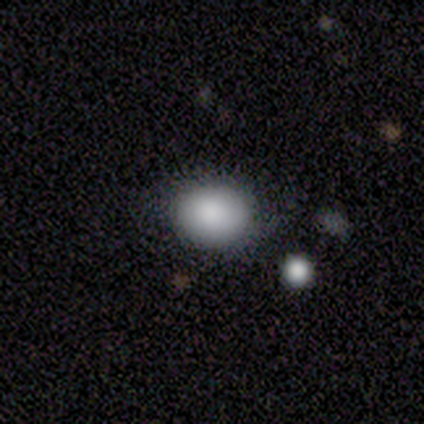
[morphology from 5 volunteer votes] Smooth or featured? smooth (60%)
How rounded? round (67%)
Merging? none (75%)